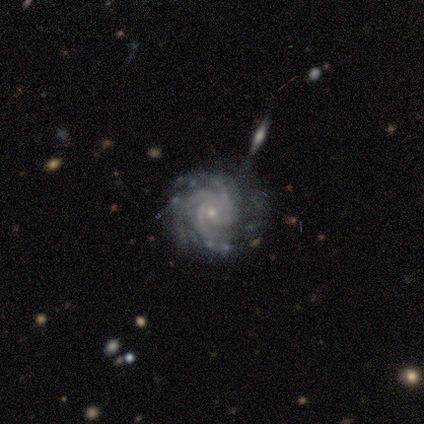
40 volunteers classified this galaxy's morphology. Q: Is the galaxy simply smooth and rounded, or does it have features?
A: featured or disk — 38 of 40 (95%).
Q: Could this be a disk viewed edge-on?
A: no — 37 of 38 (97%).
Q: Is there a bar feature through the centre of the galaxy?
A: no — 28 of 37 (76%).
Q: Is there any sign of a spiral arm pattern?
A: yes — 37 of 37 (100%).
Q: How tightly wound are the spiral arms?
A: tight — 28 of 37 (76%).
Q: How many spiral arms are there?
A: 3 — 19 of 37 (51%).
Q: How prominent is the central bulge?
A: small — 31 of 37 (84%).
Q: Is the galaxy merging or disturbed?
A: none — 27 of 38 (71%).